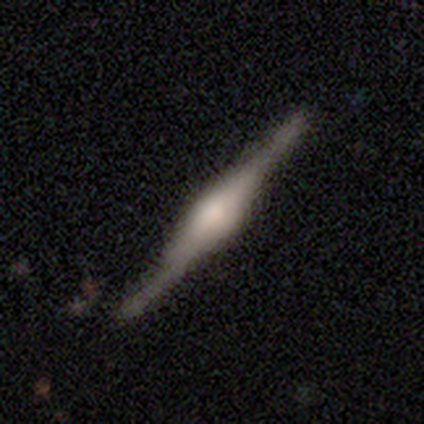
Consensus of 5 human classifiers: Smooth or featured?
  - featured or disk: 100% *
  - smooth: 0%
  - star or artifact: 0%
Edge-on disk?
  - yes: 100% *
  - no: 0%
Edge-on bulge?
  - rounded: 100% *
  - boxy: 0%
  - none: 0%
Merging?
  - none: 100% *
  - minor disturbance: 0%
  - major disturbance: 0%
  - merger: 0%